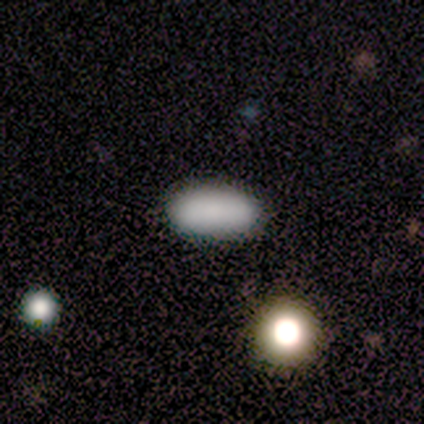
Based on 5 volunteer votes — Q: Smooth or featured?
A: smooth (80%); runner-up: star or artifact (20%)
Q: How rounded?
A: in between (100%)
Q: Merging?
A: none (75%); runner-up: major disturbance (25%)